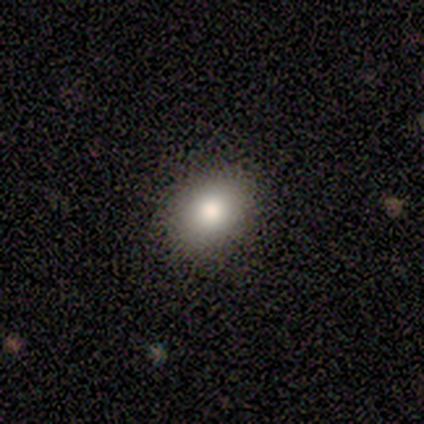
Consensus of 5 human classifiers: This appears to be a smooth galaxy with no disk features (80%) that is round (50%, tied with in between). Merging: none (80%).